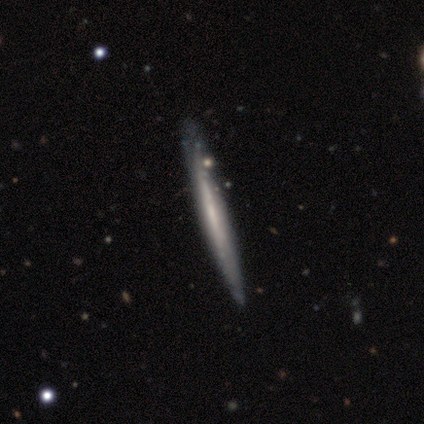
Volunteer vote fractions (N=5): A featured or disk galaxy (60%) viewed edge-on (100%) with no central bulge (67%). Merging: none (80%).